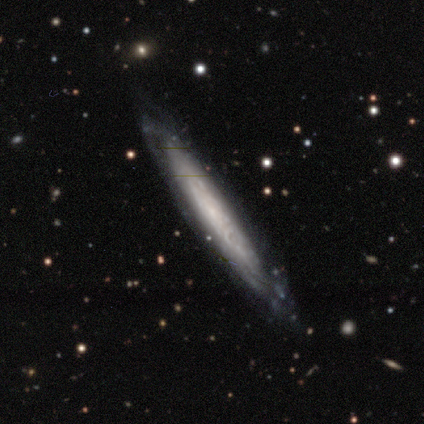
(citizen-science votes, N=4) Smooth or featured: featured or disk — 50% (smooth — 25%)
Edge-on disk: yes — 100%
Edge-on bulge: none — 50% (tied with rounded — 50%)
Merging: none — 100%